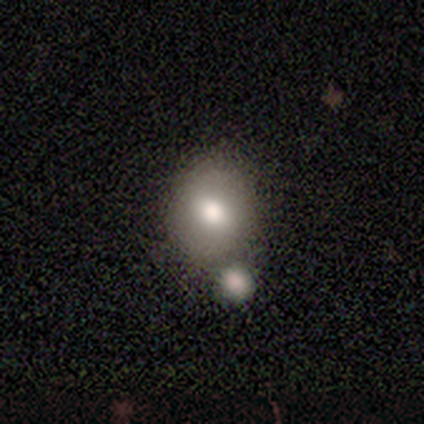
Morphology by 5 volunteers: A smooth galaxy with no disk features (60%) that is round (100%). Merging: none (40%, tied with merger).